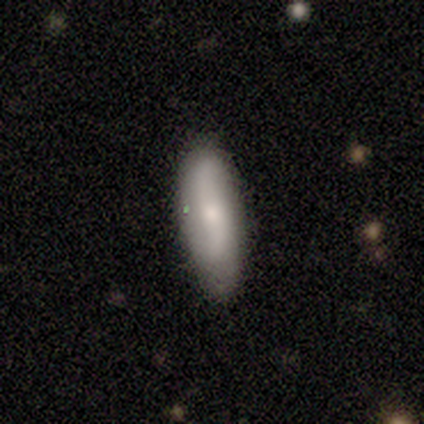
smooth_or_featured: smooth (p=0.67) [alt: featured or disk p=0.33]
how_rounded: in between (p=0.50) [tied with: cigar-shaped p=0.50]
merging: none (p=0.83) [alt: minor disturbance p=0.17]